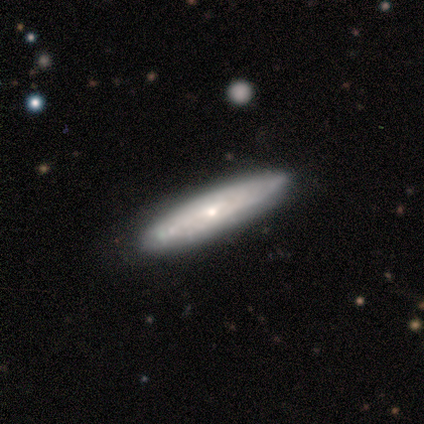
Smooth or featured? featured or disk (80%)
Edge-on disk? yes (75%)
Edge-on bulge? rounded (67%)
Merging? none (80%)